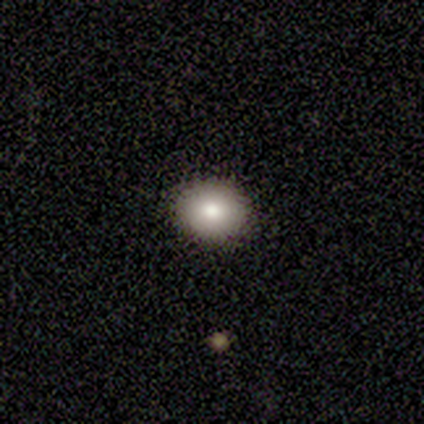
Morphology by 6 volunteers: Smooth or featured?
  - smooth: 100% *
  - featured or disk: 0%
  - star or artifact: 0%
How rounded?
  - round: 67% *
  - in between: 33%
  - cigar-shaped: 0%
Merging?
  - none: 83% *
  - major disturbance: 17%
  - minor disturbance: 0%
  - merger: 0%